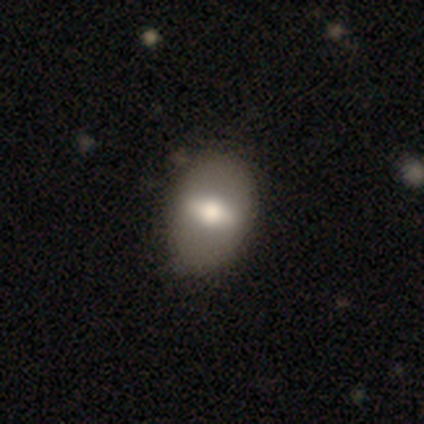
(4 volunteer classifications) This appears to be a smooth galaxy with no disk features (50%, tied with featured or disk) that is in between round and cigar-shaped (100%). Merging: none (50%).